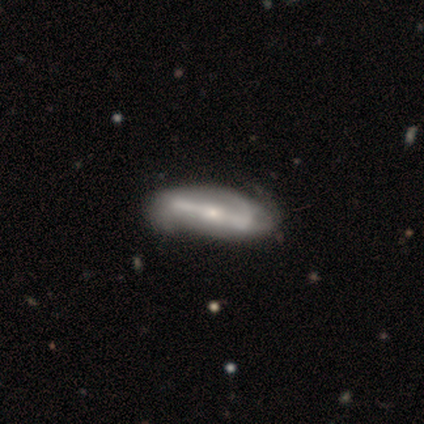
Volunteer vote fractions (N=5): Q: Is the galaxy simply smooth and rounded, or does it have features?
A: featured or disk — 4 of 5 (80%).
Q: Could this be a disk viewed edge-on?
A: no — 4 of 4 (100%).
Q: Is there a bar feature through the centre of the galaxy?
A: strong — 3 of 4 (75%).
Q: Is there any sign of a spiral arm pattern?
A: yes — 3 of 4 (75%).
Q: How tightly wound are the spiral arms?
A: medium — 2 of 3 (67%).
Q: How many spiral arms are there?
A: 2 — 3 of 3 (100%).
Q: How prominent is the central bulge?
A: small — 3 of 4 (75%).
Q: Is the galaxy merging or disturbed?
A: none — 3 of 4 (75%).